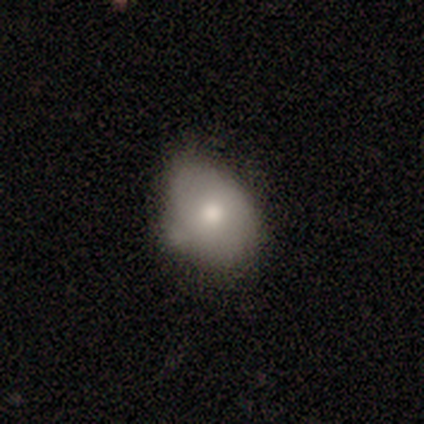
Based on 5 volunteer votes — Smooth or featured: smooth — 80% (featured or disk — 20%)
How rounded: in between — 75% (round — 25%)
Merging: none — 60% (minor disturbance — 40%)